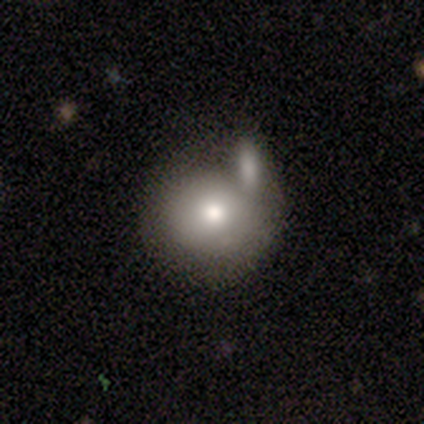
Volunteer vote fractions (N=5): smooth_or_featured: smooth (p=1.00)
how_rounded: round (p=1.00)
merging: none (p=0.40) [tied with: merger p=0.40]